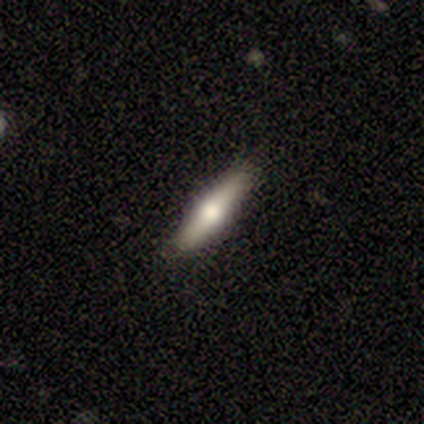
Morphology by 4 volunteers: Smooth or featured? 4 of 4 (100%) said featured or disk. Edge-on disk? 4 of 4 (100%) said yes. Edge-on bulge? 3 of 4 (75%) said rounded. Merging? 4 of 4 (100%) said none.